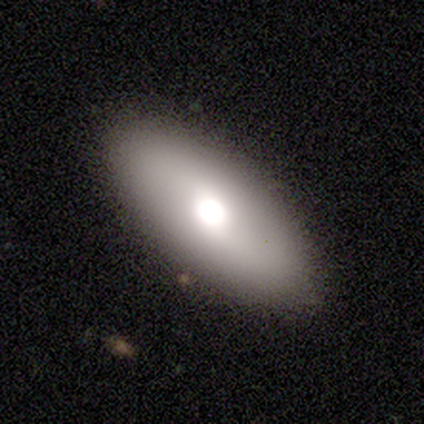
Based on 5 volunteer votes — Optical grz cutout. It shows a smooth galaxy with no disk features (60%) that is in between round and cigar-shaped (100%). Merging: none (100%).